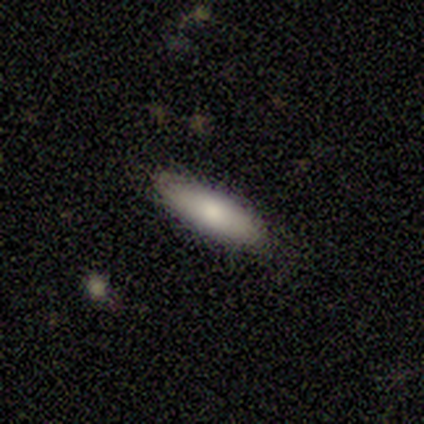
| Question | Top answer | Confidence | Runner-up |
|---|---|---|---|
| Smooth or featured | smooth | 75% | star or artifact (25%) |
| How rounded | in between | 100% | — |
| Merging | none | 100% | — |